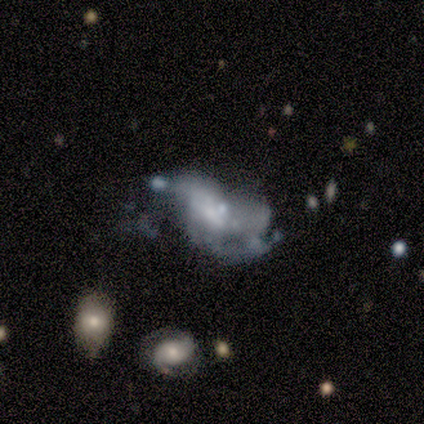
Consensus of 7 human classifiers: Smooth or featured? featured or disk (71%)
Edge-on disk? no (100%)
Bar? no (80%)
Spiral arms? no (80%)
Bulge size? none (60%)
Merging? major disturbance (67%)